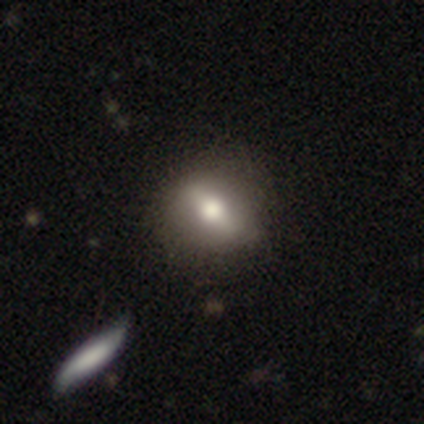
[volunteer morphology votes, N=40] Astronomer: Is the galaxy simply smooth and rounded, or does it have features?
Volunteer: smooth — 48%, tied with featured or disk at 48%.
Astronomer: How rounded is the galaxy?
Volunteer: round — 58% (runner-up: in between, 42%).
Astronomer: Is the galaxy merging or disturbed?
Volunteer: none — 66%.